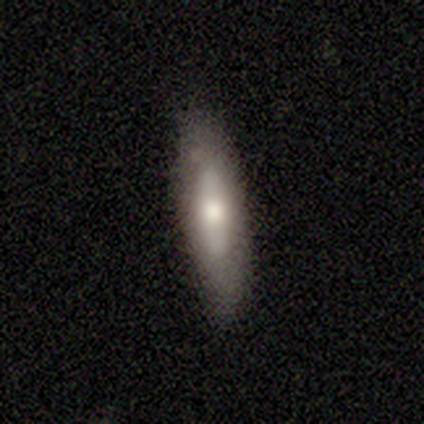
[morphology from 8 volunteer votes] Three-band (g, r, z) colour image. It shows a featured or disk galaxy (62%) with a strong bar (33%, tied with weak and no), no spiral arms (67%) and a moderate central bulge (67%). Merging: none (75%).